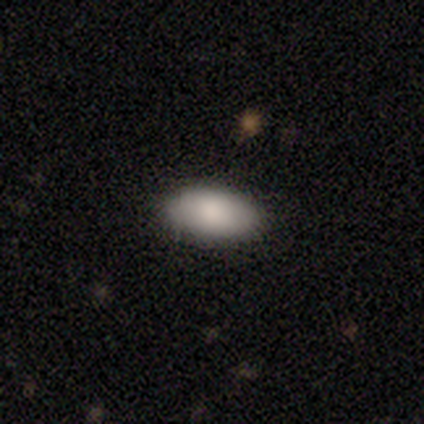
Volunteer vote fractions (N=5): Volunteers were most divided on "smooth or featured": smooth: 80%, star or artifact: 20%, featured or disk: 0%. More confident: how rounded — in between (100%); merging — none (100%).